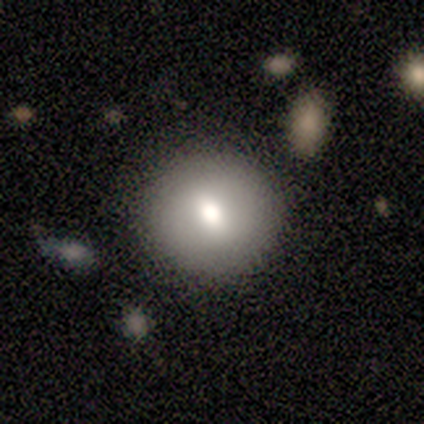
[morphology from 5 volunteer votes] A smooth galaxy with no disk features (60%) that is round (100%). Merging: none (80%).